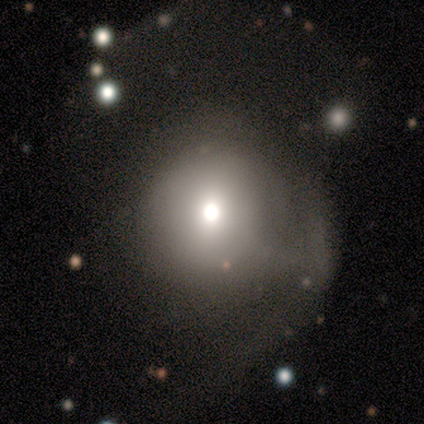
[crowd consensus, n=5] Volunteers were most divided on "merging" (2-way tie): none: 50%, minor disturbance: 50%, major disturbance: 0%, merger: 0%. More confident: how rounded — round (100%); smooth or featured — smooth (60%).